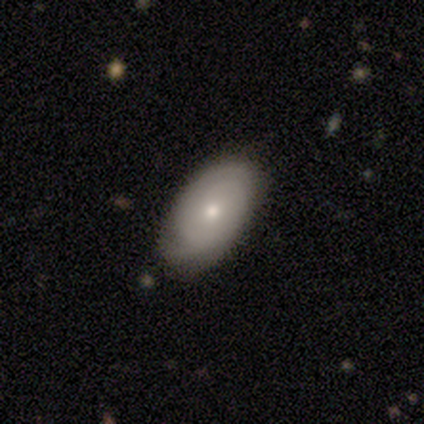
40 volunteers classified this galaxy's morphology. smooth-or-featured: featured or disk: 48% | smooth: 45% | star or artifact: 8%
  disk-edge-on: no: 95% | yes: 5%
    bar: no: 83% | weak: 17% | strong: 0%
    has-spiral-arms: yes: 72% | no: 28%
      spiral-winding: tight: 69% | medium: 23% | loose: 8%
      spiral-arm-count: 2: 77% | can't tell: 15% | 1: 8% | 3: 0% | 4: 0% | more than 4: 0%
    bulge-size: moderate: 50% | small: 44% | none: 6% | dominant: 0% | large: 0%
  merging: none: 78% | minor disturbance: 16% | major disturbance: 5% | merger: 0%